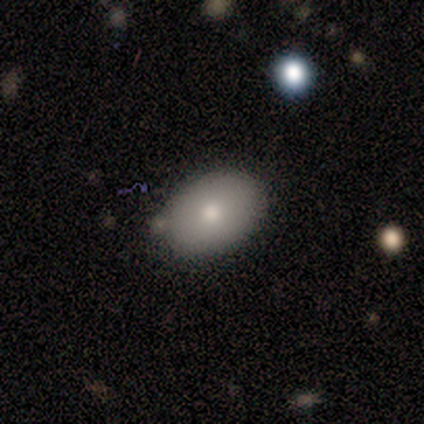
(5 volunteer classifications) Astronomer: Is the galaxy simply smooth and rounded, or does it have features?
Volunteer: smooth — 60% (runner-up: star or artifact, 40%).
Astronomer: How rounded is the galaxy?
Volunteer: in between — 100%.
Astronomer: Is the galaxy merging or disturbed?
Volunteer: none — 100%.